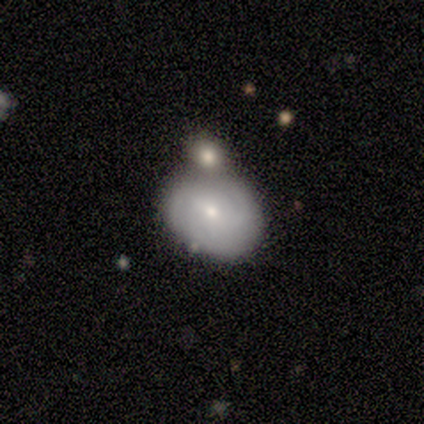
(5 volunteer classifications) A smooth galaxy with no disk features (80%) that is in between round and cigar-shaped (75%). Merging: merger (60%).